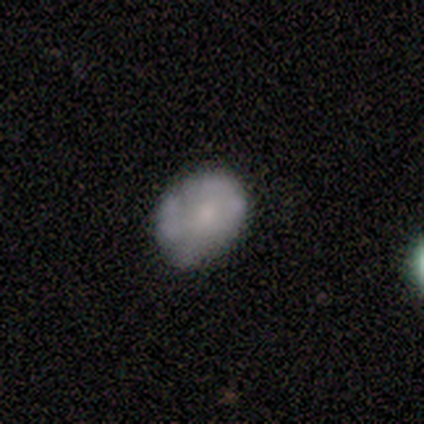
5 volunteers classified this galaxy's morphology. A smooth galaxy with no disk features (60%) that is in between round and cigar-shaped (67%). Merging: none (60%).